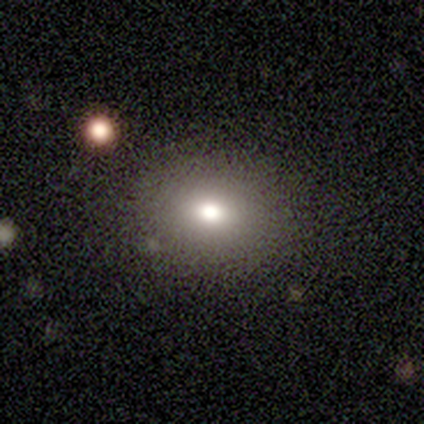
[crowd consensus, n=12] This is clearly a smooth galaxy (83%). How rounded: possibly round (50%, tied with in between). Merging: clearly none (100%).